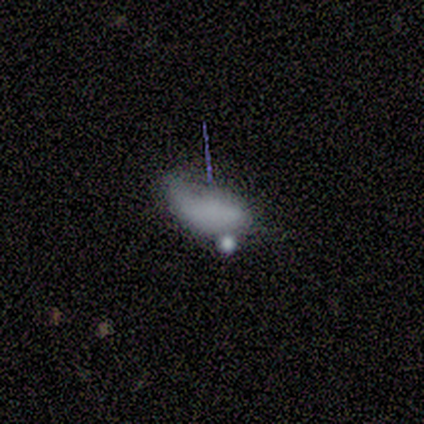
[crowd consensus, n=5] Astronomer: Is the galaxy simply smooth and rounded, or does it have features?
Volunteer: smooth — 60%.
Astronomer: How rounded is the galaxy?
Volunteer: in between — 100%.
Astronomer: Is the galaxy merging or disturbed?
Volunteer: major disturbance — 50%.